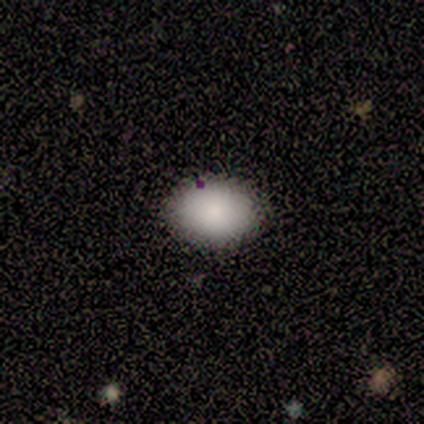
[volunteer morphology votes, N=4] Q: Smooth or featured?
A: smooth (100%)
Q: How rounded?
A: in between (75%); runner-up: round (25%)
Q: Merging?
A: none (50%); tied with: minor disturbance (50%)